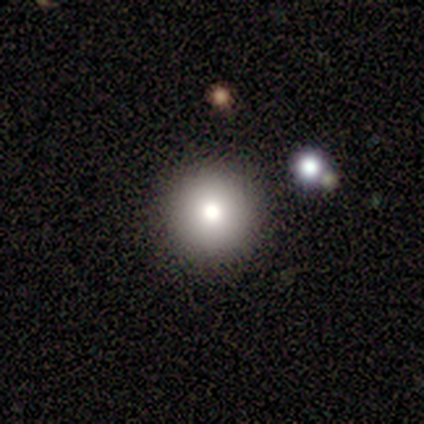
A smooth galaxy with no disk features (80%) that is round (100%). Merging: none (100%).